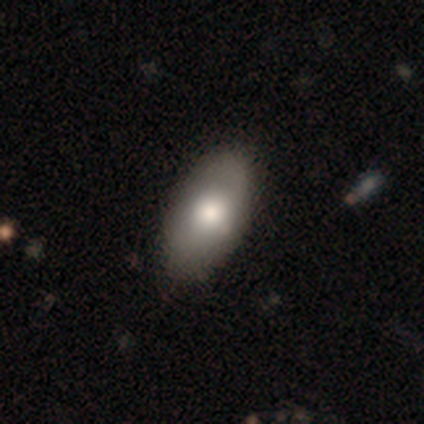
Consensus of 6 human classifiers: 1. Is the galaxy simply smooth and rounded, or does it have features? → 50% smooth (tied), 50% featured or disk (tied), 0% star or artifact.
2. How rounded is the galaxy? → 67% in between, 33% cigar-shaped, 0% round.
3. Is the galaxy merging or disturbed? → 50% none, 33% minor disturbance, 17% major disturbance, 0% merger.